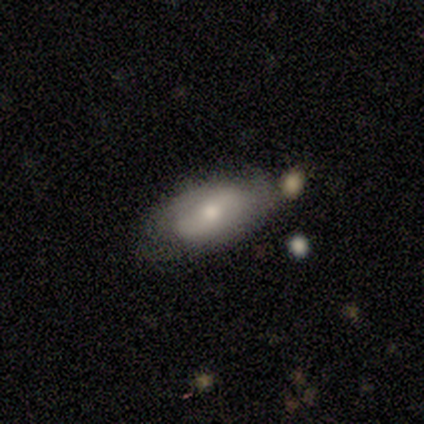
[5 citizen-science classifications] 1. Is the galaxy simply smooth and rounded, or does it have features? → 60% smooth, 40% featured or disk, 0% star or artifact.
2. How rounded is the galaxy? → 100% in between, 0% round, 0% cigar-shaped.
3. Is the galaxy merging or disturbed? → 60% minor disturbance, 40% none, 0% major disturbance, 0% merger.